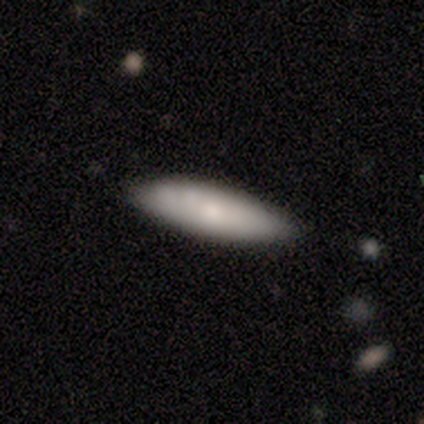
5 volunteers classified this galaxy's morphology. This is clearly a smooth galaxy (80%). How rounded: likely cigar-shaped (75%). Merging: clearly none (80%).